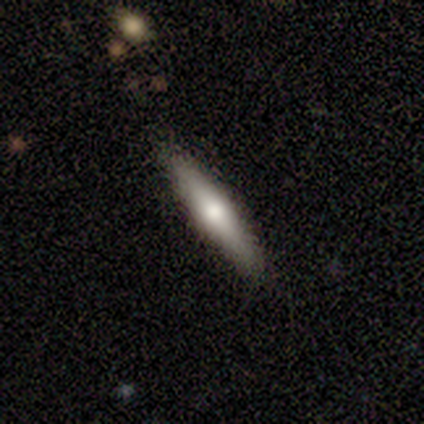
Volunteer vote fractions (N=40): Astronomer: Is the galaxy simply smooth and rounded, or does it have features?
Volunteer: featured or disk — 48% (runner-up: smooth, 45%).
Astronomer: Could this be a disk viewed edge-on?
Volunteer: yes — 89%.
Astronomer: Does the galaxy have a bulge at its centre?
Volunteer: rounded — 94%.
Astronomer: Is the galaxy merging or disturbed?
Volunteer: none — 92%.